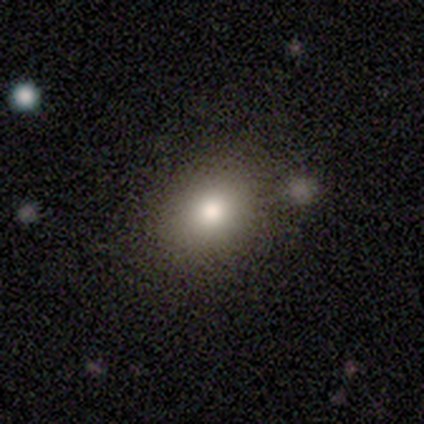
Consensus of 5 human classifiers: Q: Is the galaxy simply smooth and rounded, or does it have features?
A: smooth — 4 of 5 (80%).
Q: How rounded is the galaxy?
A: round — 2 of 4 (50%, tied with in between).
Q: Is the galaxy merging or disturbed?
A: none — 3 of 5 (60%).